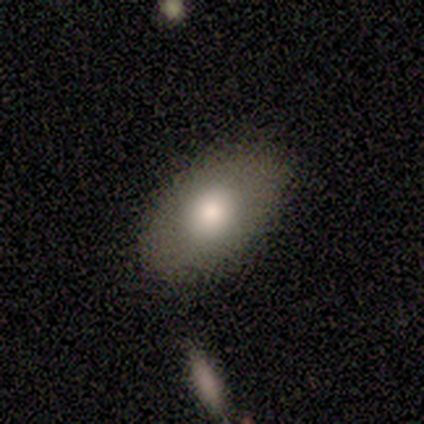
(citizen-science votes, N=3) This is likely a smooth galaxy (67%). How rounded: clearly in between (100%). Merging: clearly none (100%).